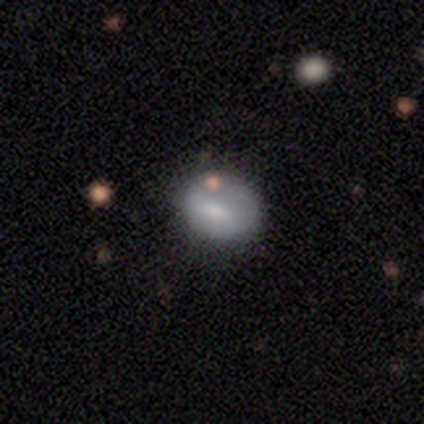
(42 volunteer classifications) Smooth or featured? smooth (74%)
How rounded? in between (61%)
Merging? none (72%)